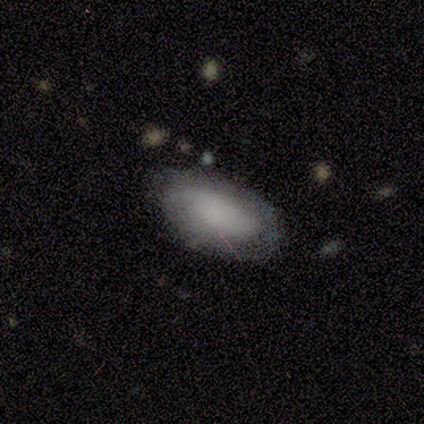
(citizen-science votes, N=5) smooth-or-featured: featured or disk: 60% | smooth: 40% | star or artifact: 0%
  disk-edge-on: no: 67% | yes: 33%
    bar: no: 100% | strong: 0% | weak: 0%
    has-spiral-arms: yes: 100% | no: 0%
      spiral-winding: tight: 50% (tied) | loose: 50% (tied) | medium: 0%
      spiral-arm-count: 1: 50% (tied) | 2: 50% (tied) | 3: 0% | 4: 0% | more than 4: 0% | can't tell: 0%
    bulge-size: dominant: 50% (tied) | none: 50% (tied) | large: 0% | moderate: 0% | small: 0%
  merging: none: 60% | minor disturbance: 40% | major disturbance: 0% | merger: 0%